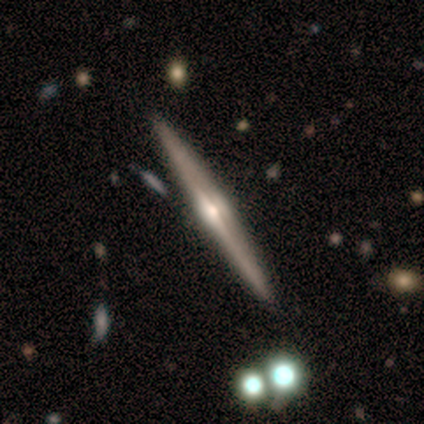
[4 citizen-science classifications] smooth_or_featured: featured or disk (p=1.00)
disk_edge_on: yes (p=1.00)
edge_on_bulge: rounded (p=0.75) [alt: boxy p=0.25]
merging: none (p=0.50) [alt: minor disturbance p=0.25]